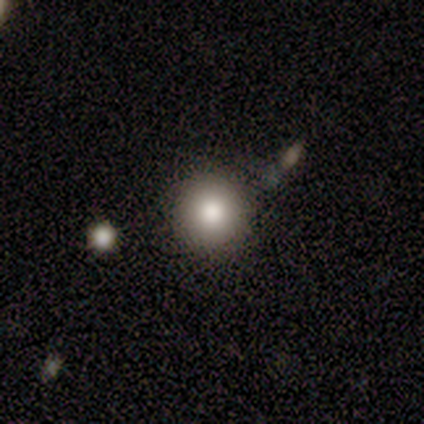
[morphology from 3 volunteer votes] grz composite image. It shows a smooth galaxy with no disk features (67%) that is round (100%). Merging: none (67%).